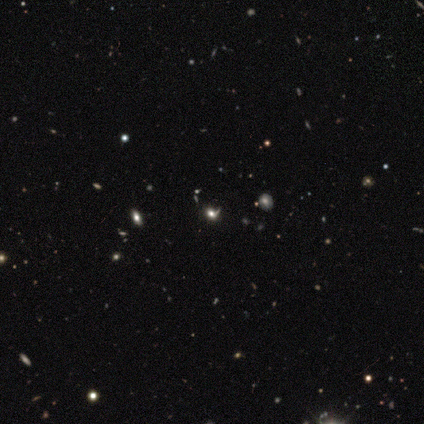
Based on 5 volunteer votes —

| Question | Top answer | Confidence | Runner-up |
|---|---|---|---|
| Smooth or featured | smooth | 40% | tied: star or artifact (40%) |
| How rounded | round | 100% | — |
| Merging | none | 33% | tied: minor disturbance (33%), major disturbance (33%) |